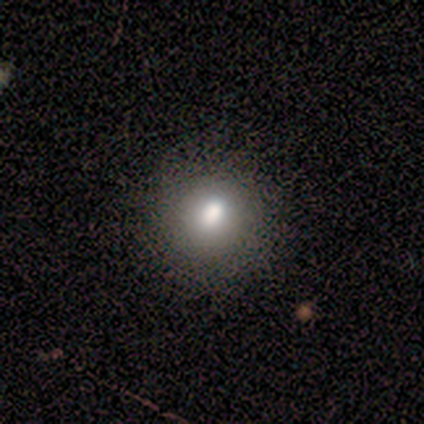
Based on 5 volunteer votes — Smooth or featured? 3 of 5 (60%) said smooth. How rounded? 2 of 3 (67%) said round. Merging? 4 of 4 (100%) said none.